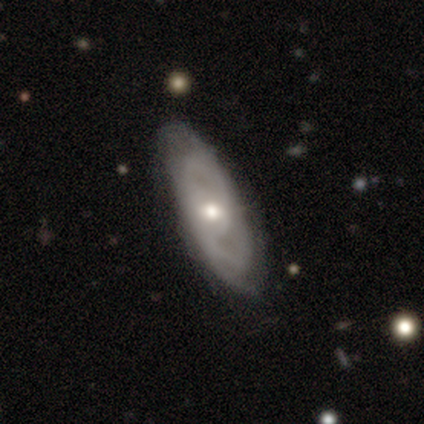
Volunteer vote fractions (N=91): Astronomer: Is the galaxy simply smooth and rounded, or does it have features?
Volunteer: featured or disk — 75%.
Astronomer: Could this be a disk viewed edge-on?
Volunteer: no — 87%.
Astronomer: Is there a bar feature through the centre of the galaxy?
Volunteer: no — 56% (runner-up: weak, 32%).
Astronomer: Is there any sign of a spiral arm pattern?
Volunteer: yes — 86%.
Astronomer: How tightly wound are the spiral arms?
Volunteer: tight — 57% (runner-up: medium, 33%).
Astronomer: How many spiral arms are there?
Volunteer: can't tell — 51% (runner-up: 2, 37%).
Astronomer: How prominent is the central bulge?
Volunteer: moderate — 66%.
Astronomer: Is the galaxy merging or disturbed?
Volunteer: none — 78%.